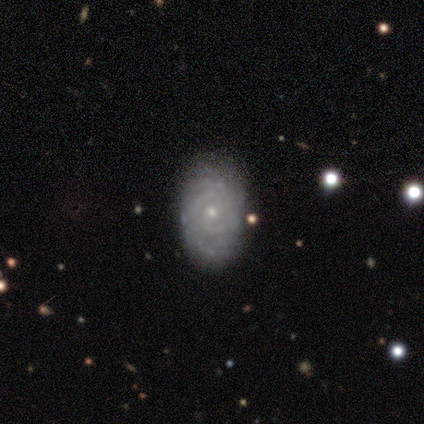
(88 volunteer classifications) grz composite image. It shows a featured or disk galaxy (78%) with no bar (71%), 2 (24%, tied with can't tell) tight (79%) spiral arms (96%) and a small central bulge (81%). Merging: none (78%).